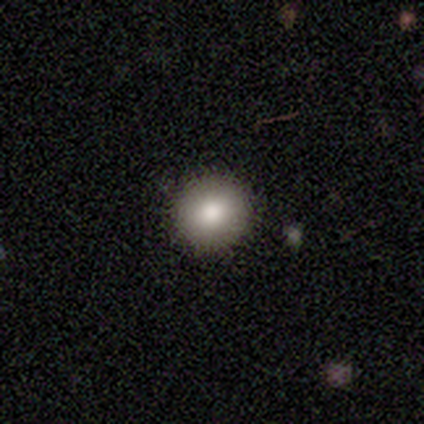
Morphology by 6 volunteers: This is clearly a smooth galaxy (100%). How rounded: clearly round (83%). Merging: clearly none (100%).